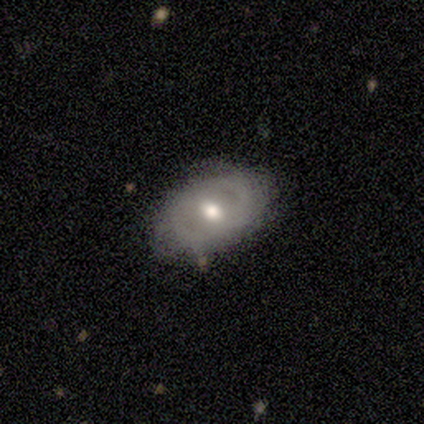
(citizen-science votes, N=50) Volunteers were most divided on "bar": weak: 50%, no: 47%, strong: 3%. More confident: edge-on disk — no (97%); merging — none (76%); smooth or featured — featured or disk (74%); bulge size — moderate (67%); spiral arms — no (58%).